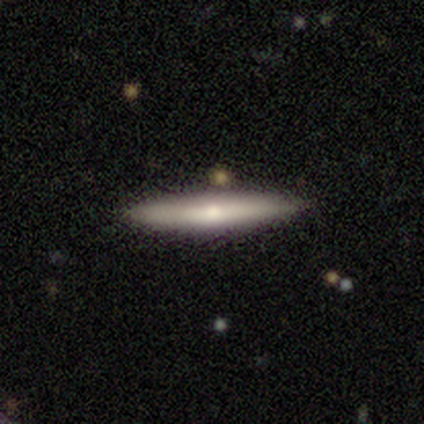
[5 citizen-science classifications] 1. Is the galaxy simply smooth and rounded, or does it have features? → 60% smooth, 40% featured or disk, 0% star or artifact.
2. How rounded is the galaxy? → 67% cigar-shaped, 33% in between, 0% round.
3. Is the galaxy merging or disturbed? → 100% none, 0% minor disturbance, 0% major disturbance, 0% merger.